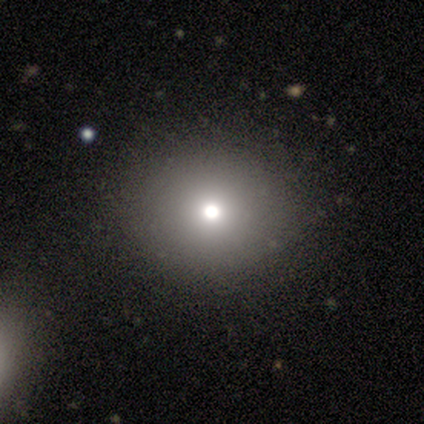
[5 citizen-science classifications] Overall: smooth (60%; featured or disk 20%). How rounded: round (100%). Merging: none (100%).